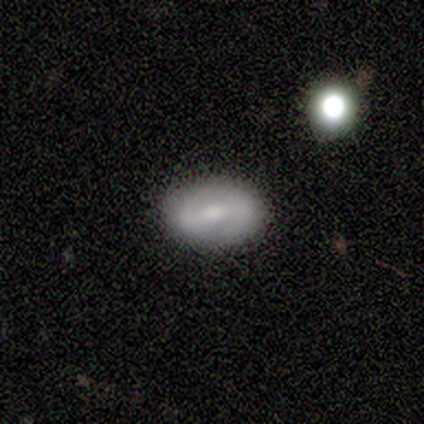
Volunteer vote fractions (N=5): Smooth or featured? featured or disk (60%)
Edge-on disk? no (100%)
Bar? weak (100%)
Spiral arms? yes (67%)
Spiral winding? medium (50%, tied with loose)
Spiral arm count? 2 (100%)
Bulge size? moderate (67%)
Merging? none (100%)